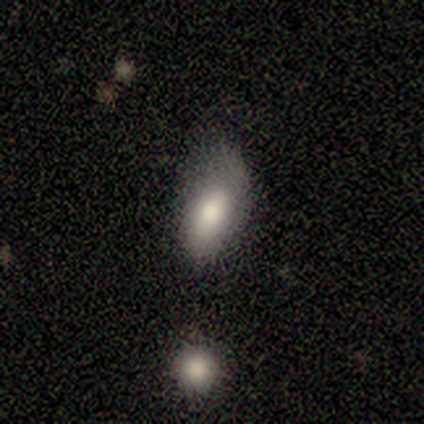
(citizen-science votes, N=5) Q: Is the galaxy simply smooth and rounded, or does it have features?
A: smooth — 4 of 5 (80%).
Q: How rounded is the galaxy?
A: in between — 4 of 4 (100%).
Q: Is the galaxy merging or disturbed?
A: none — 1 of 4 (25%, tied with minor disturbance, major disturbance and merger).